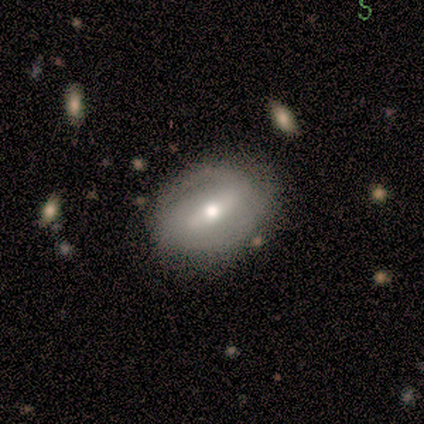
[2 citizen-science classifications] smooth_or_featured: featured or disk (p=1.00)
disk_edge_on: no (p=1.00)
bar: weak (p=0.50) [tied with: no p=0.50]
has_spiral_arms: yes (p=0.50) [tied with: no p=0.50]
spiral_winding: loose (p=1.00)
spiral_arm_count: 1 (p=1.00)
bulge_size: moderate (p=1.00)
merging: none (p=1.00)